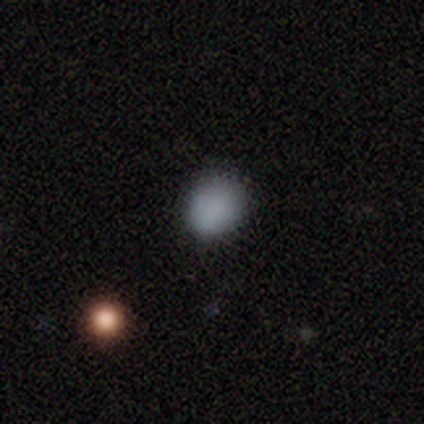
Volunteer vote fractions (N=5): Smooth or featured? smooth (80%)
How rounded? round (50%, tied with in between)
Merging? none (100%)